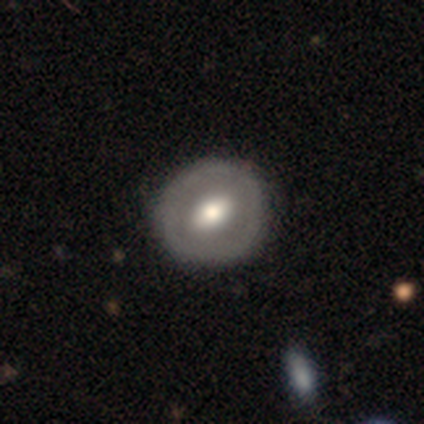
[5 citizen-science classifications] A featured or disk galaxy (60%) with a weak bar (100%), no spiral arms (100%) and a moderate central bulge (67%). Merging: none (100%).